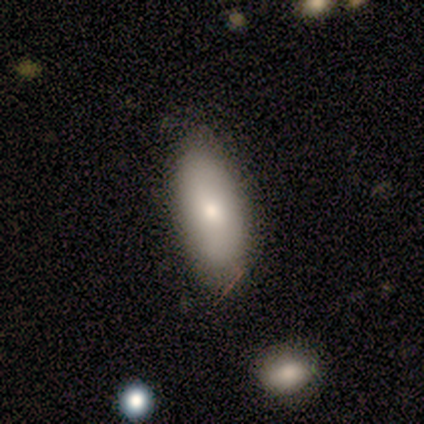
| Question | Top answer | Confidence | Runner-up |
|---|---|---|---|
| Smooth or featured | smooth | 67% | featured or disk (33%) |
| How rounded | in between | 75% | round (25%) |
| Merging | none | 67% | minor disturbance (17%) |